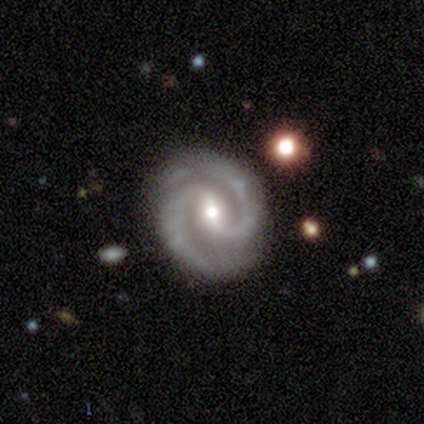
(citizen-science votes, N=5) Overall: featured or disk (80%). Edge-on disk: no (100%). Bar: strong (50%, tied with weak). Spiral arms: yes (100%). Spiral arm count: 2 (100%). Spiral winding: medium (75%). Bulge size: small (75%). Merging: none (75%).